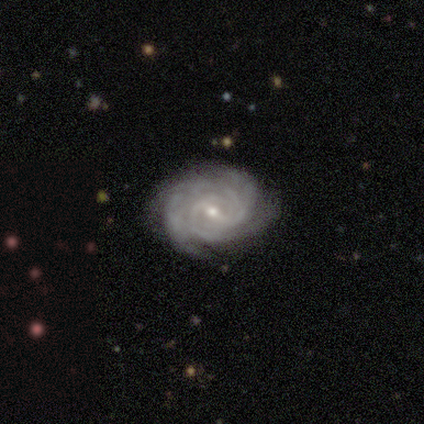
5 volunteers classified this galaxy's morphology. Smooth or featured? featured or disk (100%)
Edge-on disk? no (100%)
Bar? weak (60%)
Spiral arms? yes (100%)
Spiral winding? tight (80%)
Spiral arm count? can't tell (60%)
Bulge size? moderate (60%)
Merging? none (100%)